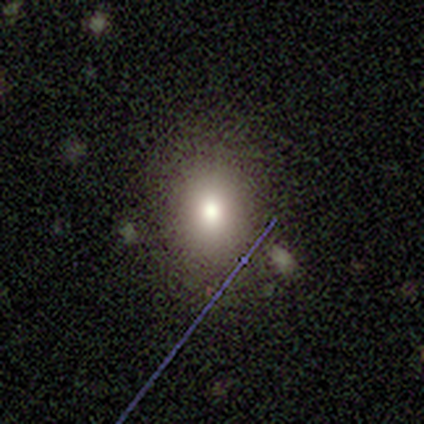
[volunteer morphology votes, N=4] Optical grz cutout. It shows a smooth galaxy with no disk features (100%) that is round (50%, tied with in between). Merging: none (100%).